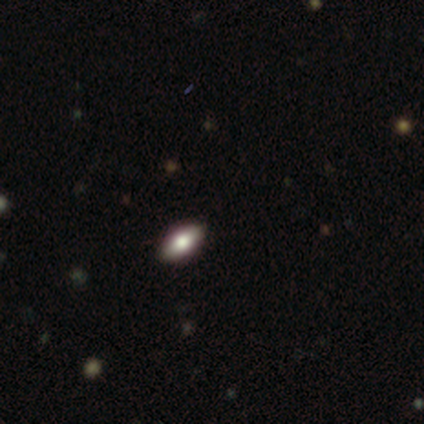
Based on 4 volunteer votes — Smooth or featured? smooth (100%)
How rounded? in between (100%)
Merging? none (75%)